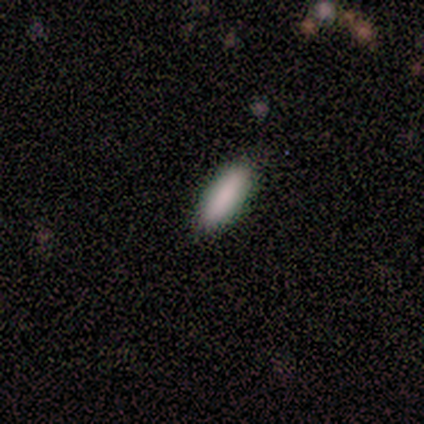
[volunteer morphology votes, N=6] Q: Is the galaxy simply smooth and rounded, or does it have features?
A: smooth — 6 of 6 (100%).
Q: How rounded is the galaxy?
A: in between — 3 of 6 (50%, tied with cigar-shaped).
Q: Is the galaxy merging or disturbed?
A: none — 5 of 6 (83%).